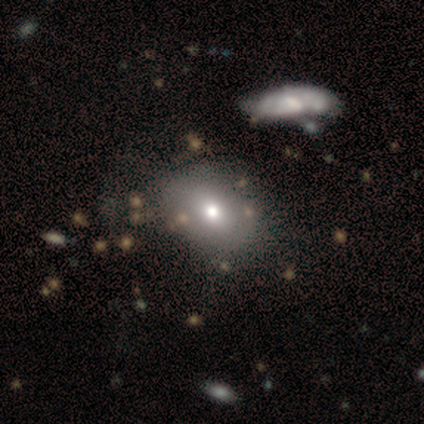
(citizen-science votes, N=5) This appears to be a smooth galaxy with no disk features (60%) that is in between round and cigar-shaped (67%). Merging: none (50%).